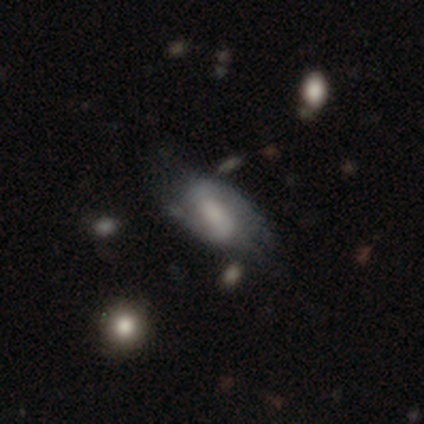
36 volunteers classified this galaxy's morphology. Q: Smooth or featured?
A: featured or disk (61%); runner-up: smooth (33%)
Q: Edge-on disk?
A: no (95%); runner-up: yes (5%)
Q: Bar?
A: strong (38%); tied with: weak (38%)
Q: Spiral arms?
A: yes (90%); runner-up: no (10%)
Q: Spiral winding?
A: medium (47%); runner-up: loose (32%)
Q: Spiral arm count?
A: 2 (74%); runner-up: can't tell (21%)
Q: Bulge size?
A: small (43%); runner-up: large (24%)
Q: Merging?
A: none (59%); runner-up: major disturbance (26%)